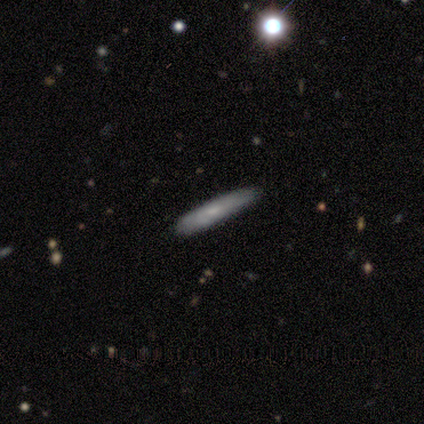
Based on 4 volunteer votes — Smooth or featured?
  - smooth: 100% *
  - featured or disk: 0%
  - star or artifact: 0%
How rounded?
  - cigar-shaped: 100% *
  - round: 0%
  - in between: 0%
Merging?
  - none: 100% *
  - minor disturbance: 0%
  - major disturbance: 0%
  - merger: 0%